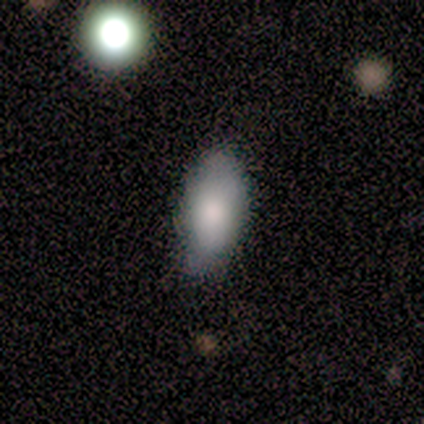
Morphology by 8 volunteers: smooth 100%, featured or disk 0%, star or artifact 0%. Down the decision tree: how rounded — in between (100%); merging — none (75%).